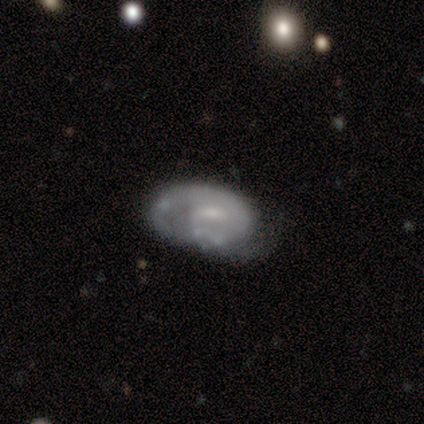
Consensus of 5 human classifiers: This appears to be a smooth galaxy with no disk features (40%, tied with featured or disk) that is in between round and cigar-shaped (100%). Merging: none (50%, tied with minor disturbance).